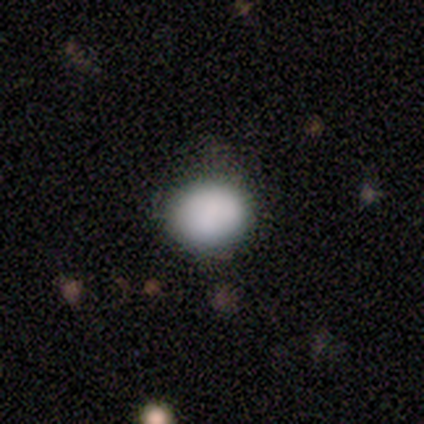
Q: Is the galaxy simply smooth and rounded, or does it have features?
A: smooth — 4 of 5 (80%).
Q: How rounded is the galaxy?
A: round — 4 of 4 (100%).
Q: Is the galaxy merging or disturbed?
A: none — 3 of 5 (60%).